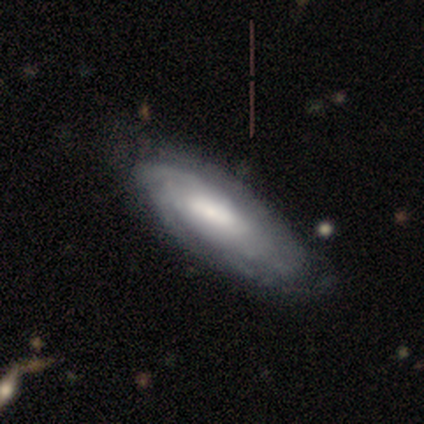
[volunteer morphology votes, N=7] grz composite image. It shows a featured or disk galaxy (71%) with a weak bar (80%), tight (60%) spiral arms (100%) and a small central bulge (40%). Merging: none (71%).